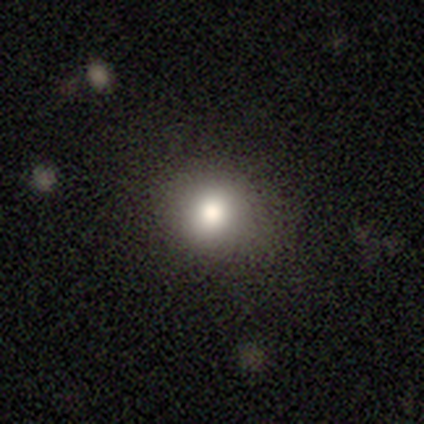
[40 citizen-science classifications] A smooth galaxy with no disk features (88%) that is round (86%).

Vote fractions:
- Smooth or featured? smooth: 88% / featured or disk: 8% / star or artifact: 5%
- How rounded? round: 86% / in between: 14% / cigar-shaped: 0%
- Merging? none: 79% / minor disturbance: 18% / major disturbance: 3% / merger: 0%